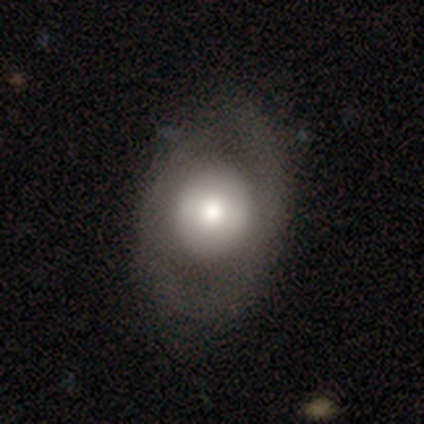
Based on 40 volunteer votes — Volunteers were most divided on "smooth or featured": smooth: 57%, featured or disk: 38%, star or artifact: 5%. More confident: how rounded — round (65%); merging — none (61%).